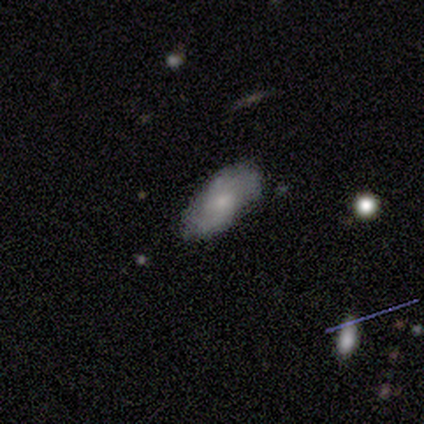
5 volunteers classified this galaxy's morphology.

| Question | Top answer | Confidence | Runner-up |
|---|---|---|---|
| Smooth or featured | featured or disk | 60% | smooth (40%) |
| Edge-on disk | no | 100% | — |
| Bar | no | 100% | — |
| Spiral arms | yes | 67% | no (33%) |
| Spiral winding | medium | 100% | — |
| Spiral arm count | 2 | 50% | tied: can't tell (50%) |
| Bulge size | small | 100% | — |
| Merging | none | 60% | minor disturbance (40%) |